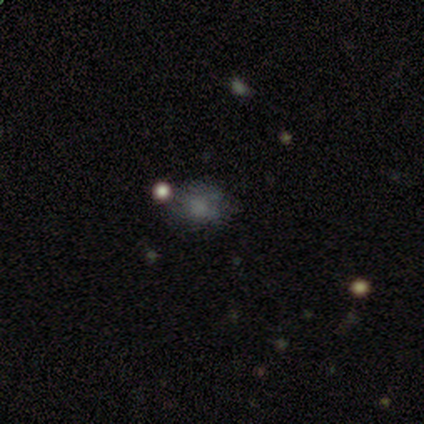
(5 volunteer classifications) smooth-or-featured: smooth: 80% | star or artifact: 20% | featured or disk: 0%
  how-rounded: round: 50% (tied) | in between: 50% (tied) | cigar-shaped: 0%
  merging: none: 75% | minor disturbance: 25% | major disturbance: 0% | merger: 0%